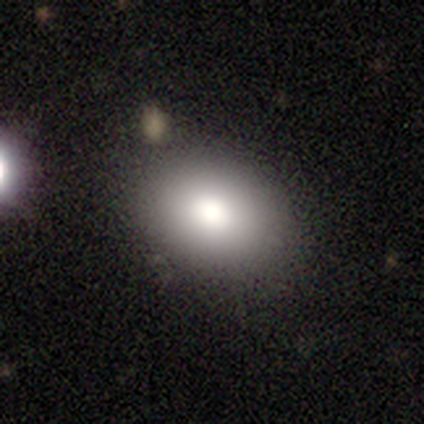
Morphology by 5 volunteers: This is likely a smooth galaxy (60%). How rounded: likely in between (67%). Merging: clearly none (80%).